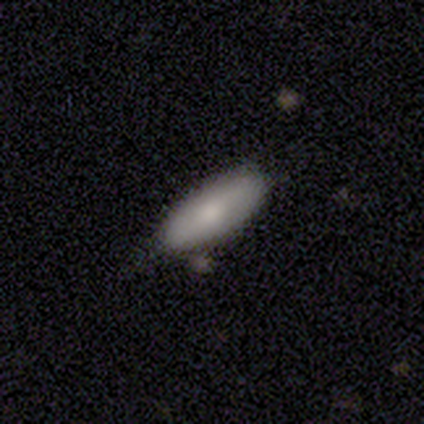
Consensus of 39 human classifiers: A smooth galaxy with no disk features (67%) that is in between round and cigar-shaped (77%). Merging: none (54%).